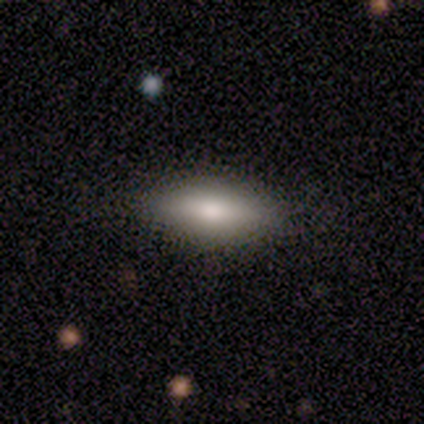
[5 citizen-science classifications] smooth_or_featured: smooth (p=0.40) [tied with: featured or disk p=0.40]
how_rounded: in between (p=0.50) [tied with: cigar-shaped p=0.50]
merging: none (p=0.75) [alt: minor disturbance p=0.25]